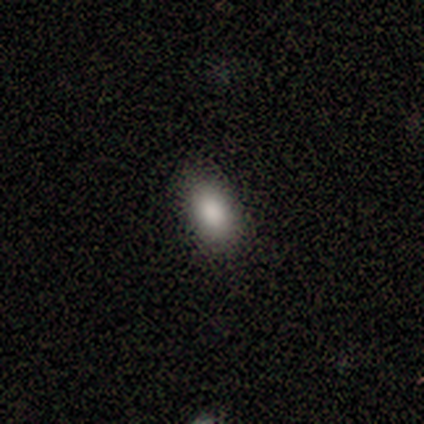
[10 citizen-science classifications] This appears to be a smooth galaxy with no disk features (90%) that is in between round and cigar-shaped (100%). Merging: none (90%).